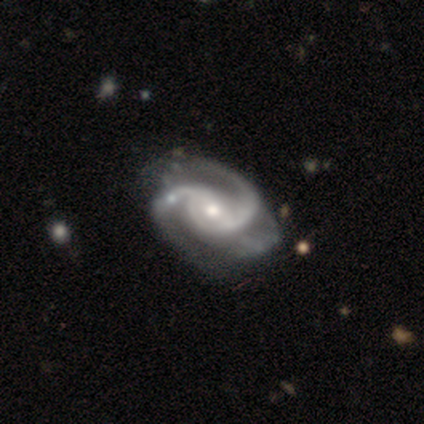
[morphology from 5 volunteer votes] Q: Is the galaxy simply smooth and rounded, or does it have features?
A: featured or disk — 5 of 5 (100%).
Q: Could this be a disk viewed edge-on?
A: no — 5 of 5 (100%).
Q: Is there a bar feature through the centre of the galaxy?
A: no — 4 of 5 (80%).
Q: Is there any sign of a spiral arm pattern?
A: yes — 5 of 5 (100%).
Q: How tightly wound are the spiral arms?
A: medium — 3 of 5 (60%).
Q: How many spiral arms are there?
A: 2 — 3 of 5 (60%).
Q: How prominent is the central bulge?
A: moderate — 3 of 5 (60%).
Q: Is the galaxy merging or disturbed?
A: none — 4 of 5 (80%).